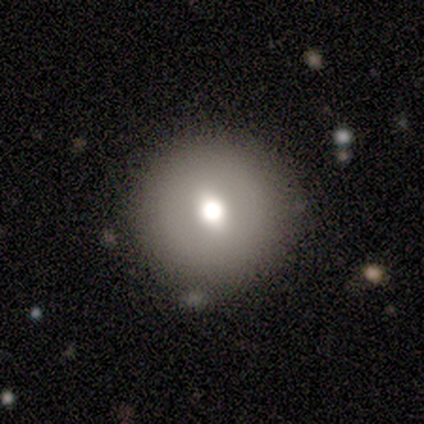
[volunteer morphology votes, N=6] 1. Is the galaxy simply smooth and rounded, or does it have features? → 67% smooth, 33% featured or disk, 0% star or artifact.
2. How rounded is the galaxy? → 75% round, 25% in between, 0% cigar-shaped.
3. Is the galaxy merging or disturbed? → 83% none, 17% minor disturbance, 0% major disturbance, 0% merger.